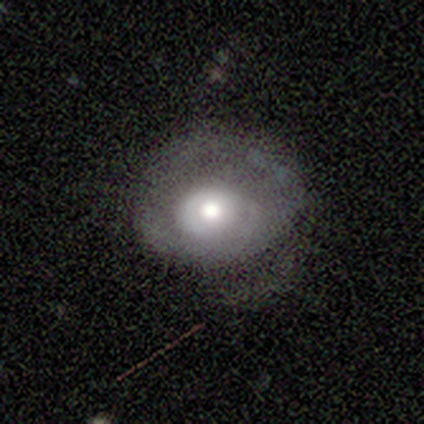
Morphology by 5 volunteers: Overall: featured or disk (100%). Edge-on disk: no (60%; yes 40%). Bar: no (100%). Spiral arms: yes (67%; no 33%). Spiral arm count: 2 (50%, tied with can't tell). Spiral winding: tight (50%, tied with medium). Bulge size: large (67%; moderate 33%). Merging: minor disturbance (60%; none 40%).